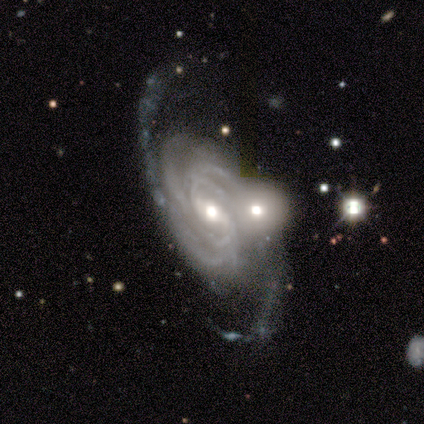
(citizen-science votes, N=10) smooth_or_featured: featured or disk (p=0.90) [alt: star or artifact p=0.10]
disk_edge_on: no (p=1.00)
bar: weak (p=0.78) [alt: strong p=0.22]
has_spiral_arms: yes (p=1.00)
spiral_winding: tight (p=0.78) [alt: medium p=0.22]
spiral_arm_count: 3 (p=0.44) [alt: 2 p=0.33]
bulge_size: moderate (p=0.78) [alt: small p=0.22]
merging: none (p=0.67) [alt: merger p=0.33]